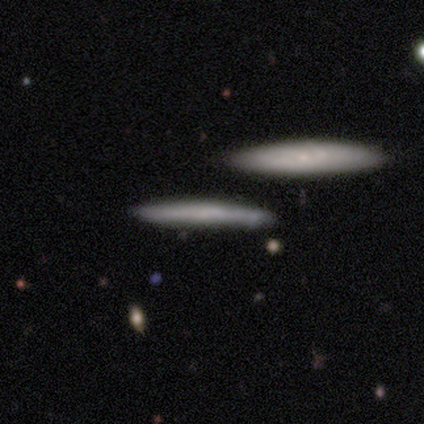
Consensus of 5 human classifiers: Overall: smooth (80%). How rounded: cigar-shaped (100%). Merging: none (60%; minor disturbance 20%).